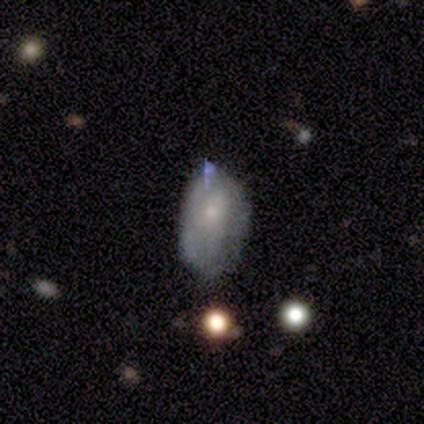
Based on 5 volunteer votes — A smooth galaxy with no disk features (80%) that is in between round and cigar-shaped (100%).

Vote fractions:
- Smooth or featured? smooth: 80% / star or artifact: 20% / featured or disk: 0%
- How rounded? in between: 100% / round: 0% / cigar-shaped: 0%
- Merging? minor disturbance: 75% / none: 25% / major disturbance: 0% / merger: 0%